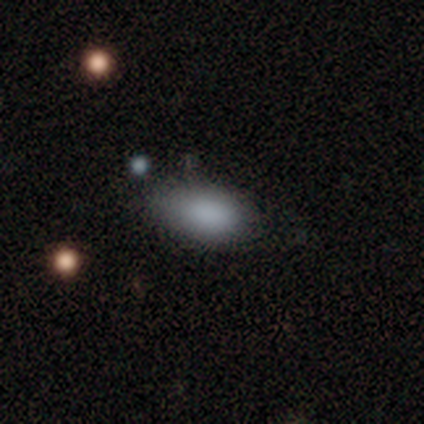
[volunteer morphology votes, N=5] Smooth or featured? smooth (80%)
How rounded? in between (75%)
Merging? none (50%, tied with minor disturbance)